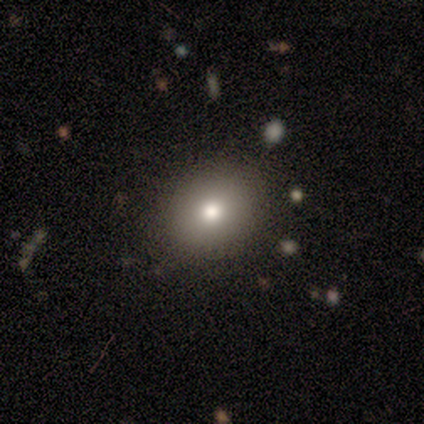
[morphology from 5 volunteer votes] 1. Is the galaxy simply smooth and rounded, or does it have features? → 100% smooth, 0% featured or disk, 0% star or artifact.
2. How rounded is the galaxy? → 100% round, 0% in between, 0% cigar-shaped.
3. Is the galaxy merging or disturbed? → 100% none, 0% minor disturbance, 0% major disturbance, 0% merger.